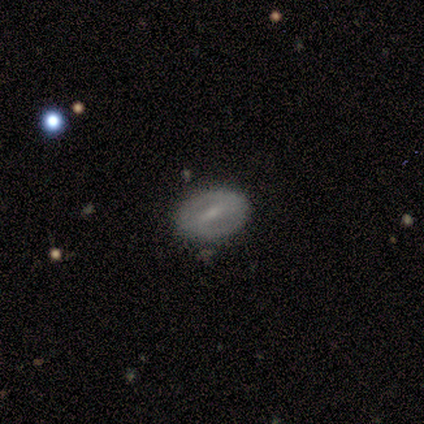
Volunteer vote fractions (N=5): smooth-or-featured: featured or disk: 60% | star or artifact: 40% | smooth: 0%
  disk-edge-on: no: 100% | yes: 0%
    bar: strong: 67% | weak: 33% | no: 0%
    has-spiral-arms: yes: 67% | no: 33%
      spiral-winding: medium: 100% | tight: 0% | loose: 0%
      spiral-arm-count: 2: 50% (tied) | can't tell: 50% (tied) | 1: 0% | 3: 0% | 4: 0% | more than 4: 0%
    bulge-size: moderate: 33% (tied) | small: 33% (tied) | none: 33% (tied) | dominant: 0% | large: 0%
  merging: none: 100% | minor disturbance: 0% | major disturbance: 0% | merger: 0%